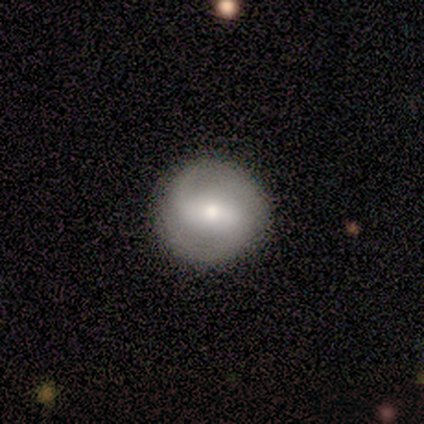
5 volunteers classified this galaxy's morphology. A featured or disk galaxy (60%) with a weak bar (67%), 2 (100%) medium (67%) spiral arms (100%) and a moderate central bulge (67%).

Vote fractions:
- Smooth or featured? featured or disk: 60% / smooth: 40% / star or artifact: 0%
- Edge-on disk? no: 100% / yes: 0%
- Bar? weak: 67% / strong: 33% / no: 0%
- Spiral arms? yes: 100% / no: 0%
- Spiral winding? medium: 67% / loose: 33% / tight: 0%
- Spiral arm count? 2: 100% / 1: 0% / 3: 0% / 4: 0% / more than 4: 0% / can't tell: 0%
- Bulge size? moderate: 67% / none: 33% / dominant: 0% / large: 0% / small: 0%
- Merging? none: 100% / minor disturbance: 0% / major disturbance: 0% / merger: 0%